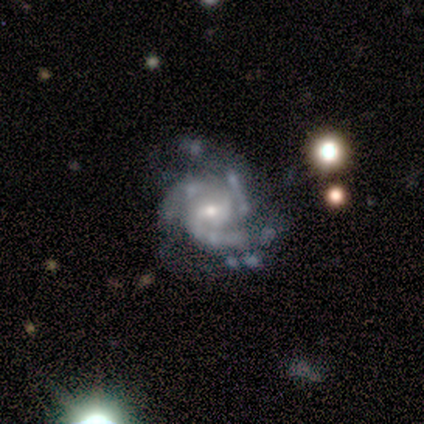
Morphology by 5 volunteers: A featured or disk galaxy (100%) with a weak bar (60%), 3 (60%) medium (60%) spiral arms (100%) and a moderate central bulge (60%). Merging: none (80%).